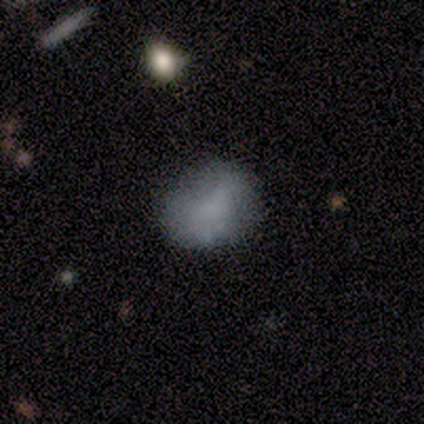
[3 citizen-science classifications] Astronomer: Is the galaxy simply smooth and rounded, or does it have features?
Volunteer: smooth — 100%.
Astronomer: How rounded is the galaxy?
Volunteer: round — 67%.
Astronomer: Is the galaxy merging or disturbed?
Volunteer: none — 100%.